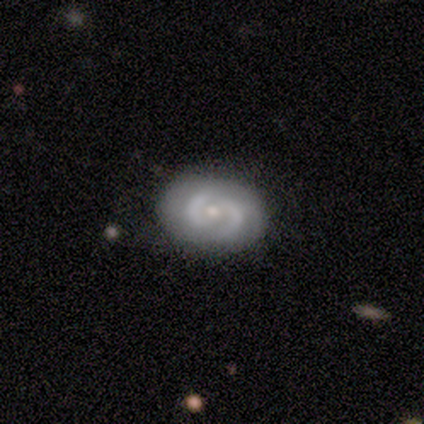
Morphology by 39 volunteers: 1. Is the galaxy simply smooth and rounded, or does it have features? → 69% featured or disk, 26% smooth, 5% star or artifact.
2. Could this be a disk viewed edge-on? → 100% no, 0% yes.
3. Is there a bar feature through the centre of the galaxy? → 78% no, 22% weak, 0% strong.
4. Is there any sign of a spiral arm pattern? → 81% yes, 19% no.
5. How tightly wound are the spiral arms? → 41% tight, 32% loose, 27% medium.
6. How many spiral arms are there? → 77% 2, 18% can't tell, 5% more than 4, 0% 1, 0% 3, 0% 4.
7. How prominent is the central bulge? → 52% moderate, 41% small, 4% large, 4% none, 0% dominant.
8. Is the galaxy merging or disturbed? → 81% none, 11% minor disturbance, 5% merger, 3% major disturbance.